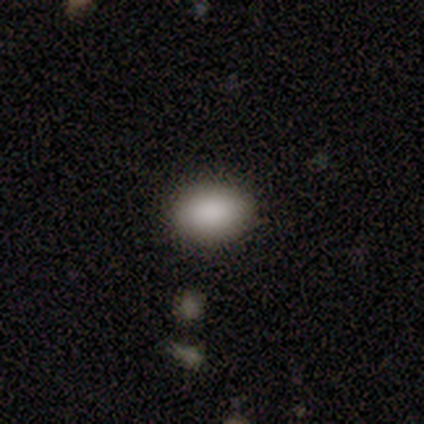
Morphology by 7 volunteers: A smooth galaxy with no disk features (71%) that is in between round and cigar-shaped (100%).

Vote fractions:
- Smooth or featured? smooth: 71% / featured or disk: 29% / star or artifact: 0%
- How rounded? in between: 100% / round: 0% / cigar-shaped: 0%
- Merging? none: 100% / minor disturbance: 0% / major disturbance: 0% / merger: 0%